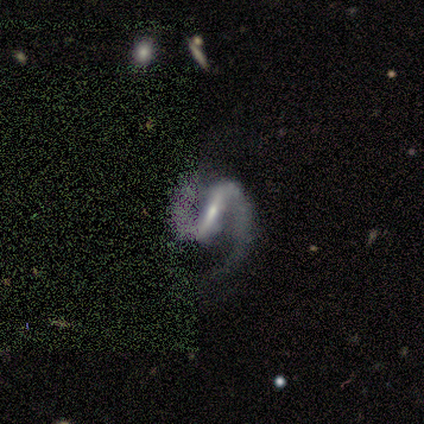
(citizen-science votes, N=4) Overall: featured or disk (100%). Edge-on disk: no (100%). Bar: strong (75%). Spiral arms: yes (100%). Spiral arm count: 2 (100%). Spiral winding: medium (75%). Bulge size: small (75%). Merging: none (50%; minor disturbance 25%).